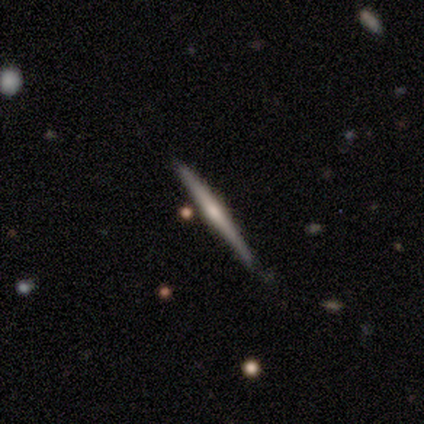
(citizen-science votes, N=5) Smooth or featured: featured or disk — 80% (smooth — 20%)
Edge-on disk: yes — 100%
Edge-on bulge: rounded — 100%
Merging: none — 100%